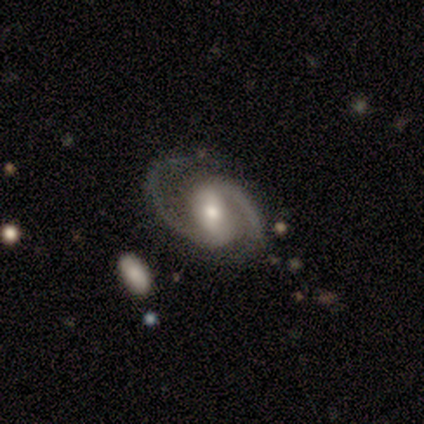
This is clearly a featured or disk galaxy (100%). It is likely not viewed edge-on (75%). Bar: likely weak (67%). Spiral arm pattern: clearly yes (100%). Spiral arm count: clearly 2 (100%). Spiral winding: likely medium (67%). Central bulge: likely moderate (67%). Merging: clearly none (100%).